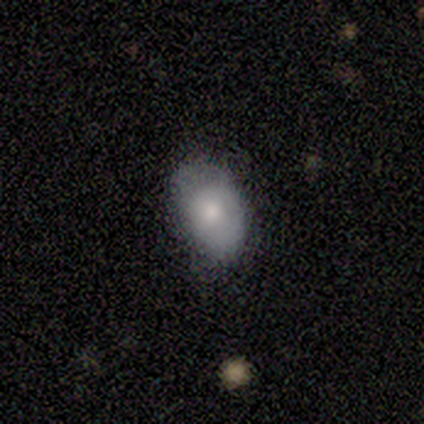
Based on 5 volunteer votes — Smooth or featured? 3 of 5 (60%) said smooth. How rounded? 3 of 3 (100%) said in between. Merging? 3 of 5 (60%) said minor disturbance.